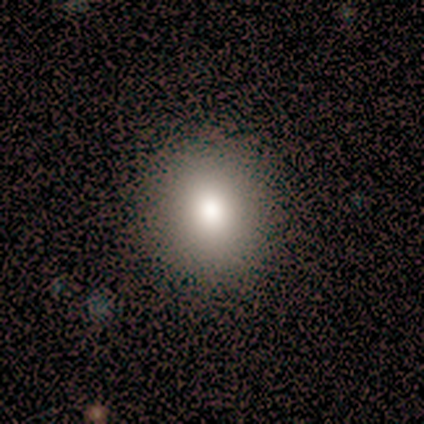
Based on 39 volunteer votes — Smooth or featured? 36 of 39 (92%) said smooth. How rounded? 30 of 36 (83%) said round. Merging? 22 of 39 (56%) said none.